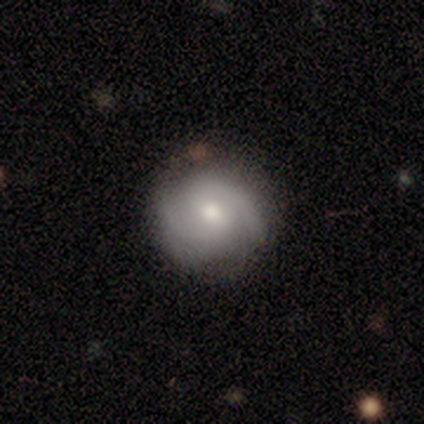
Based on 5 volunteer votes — smooth_or_featured: featured or disk (p=1.00)
disk_edge_on: no (p=1.00)
bar: no (p=0.80) [alt: strong p=0.20]
has_spiral_arms: yes (p=1.00)
spiral_winding: tight (p=0.40) [tied with: medium p=0.40]
spiral_arm_count: 2 (p=1.00)
bulge_size: moderate (p=1.00)
merging: none (p=0.80) [alt: minor disturbance p=0.20]